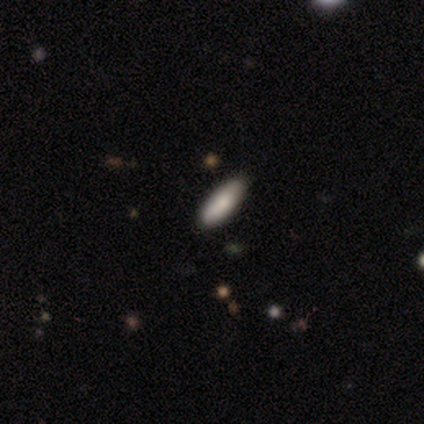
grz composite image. It shows a smooth galaxy with no disk features (60%) that is in between round and cigar-shaped (67%). Merging: none (100%).